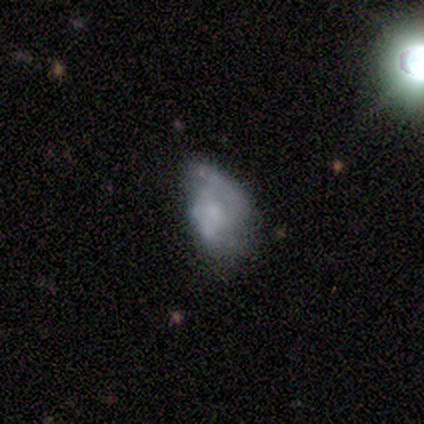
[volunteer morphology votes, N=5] star or artifact 60%, smooth 20%, featured or disk 20%.